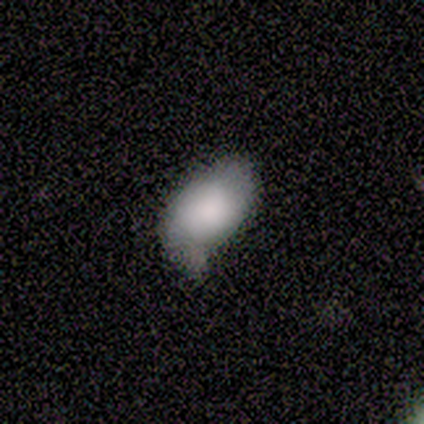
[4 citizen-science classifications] Smooth or featured? 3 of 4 (75%) said smooth. How rounded? 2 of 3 (67%) said in between. Merging? 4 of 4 (100%) said minor disturbance.